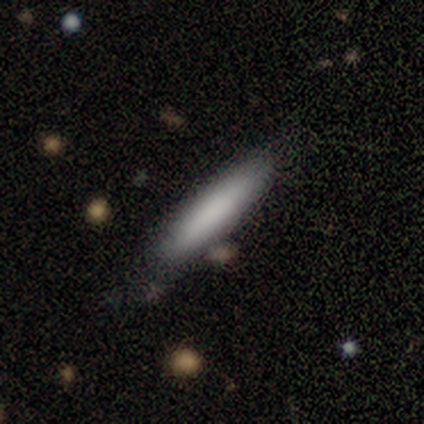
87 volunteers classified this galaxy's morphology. Overall: smooth (89%). How rounded: cigar-shaped (92%). Merging: none (77%).